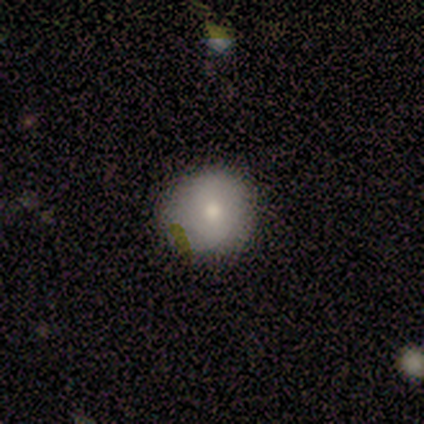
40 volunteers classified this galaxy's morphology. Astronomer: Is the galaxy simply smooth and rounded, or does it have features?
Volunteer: smooth — 72%.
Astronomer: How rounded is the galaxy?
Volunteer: round — 93%.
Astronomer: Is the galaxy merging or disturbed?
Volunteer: none — 62%.